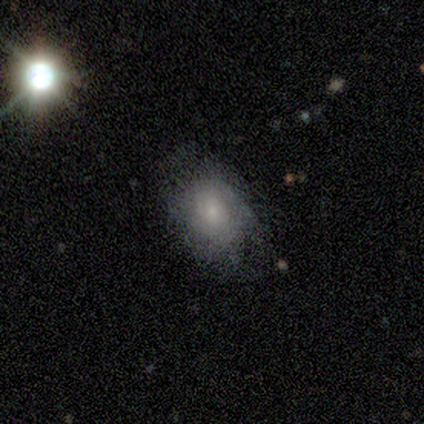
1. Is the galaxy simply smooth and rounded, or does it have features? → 40% smooth (tied), 40% featured or disk (tied), 20% star or artifact.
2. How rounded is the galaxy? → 100% in between, 0% round, 0% cigar-shaped.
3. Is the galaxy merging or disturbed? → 100% none, 0% minor disturbance, 0% major disturbance, 0% merger.